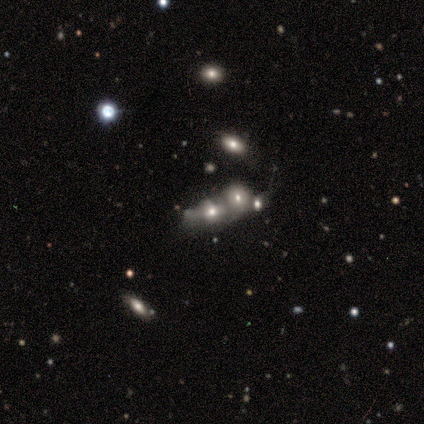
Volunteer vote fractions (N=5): Smooth or featured? 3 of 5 (60%) said featured or disk. Edge-on disk? 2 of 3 (67%) said no. Bar? 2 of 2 (100%) said no. Spiral arms? 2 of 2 (100%) said no. Bulge size? 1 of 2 (50%, tied with none) said large. Merging? 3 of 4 (75%) said merger.